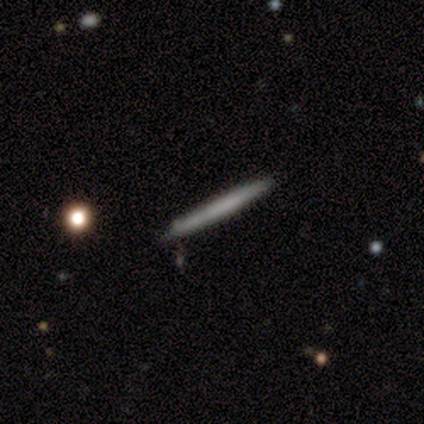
smooth 85%, featured or disk 8%, star or artifact 8%. Down the decision tree: how rounded — cigar-shaped (100%); merging — none (100%).